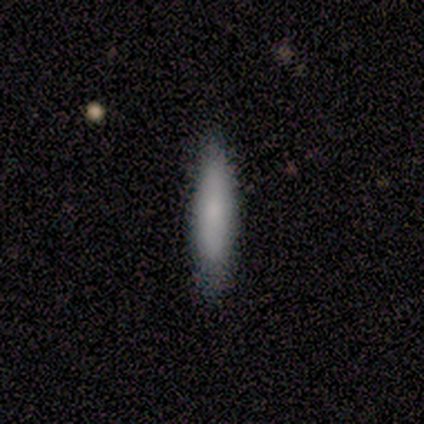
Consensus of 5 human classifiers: smooth 80%, featured or disk 20%, star or artifact 0%. Down the decision tree: how rounded — cigar-shaped (100%); merging — none (60%).